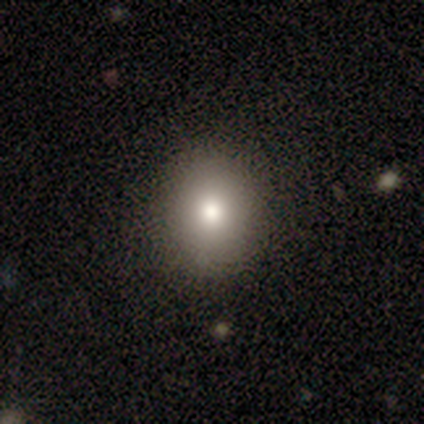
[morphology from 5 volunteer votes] smooth_or_featured: smooth (p=0.40) [tied with: star or artifact p=0.40]
how_rounded: round (p=1.00)
merging: none (p=1.00)